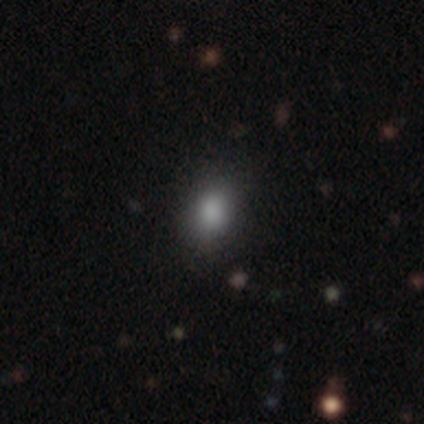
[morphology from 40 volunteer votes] smooth 82%, star or artifact 15%, featured or disk 2%. Down the decision tree: how rounded — in between (64%); merging — none (88%).